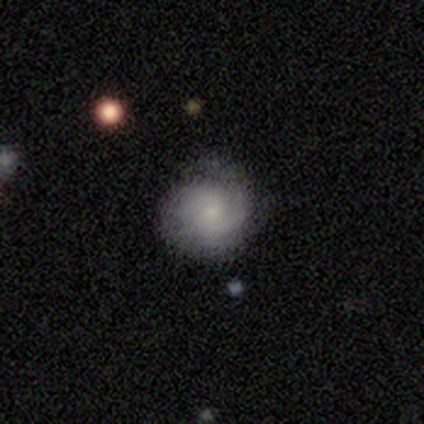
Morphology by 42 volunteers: This is likely a featured or disk galaxy (69%). It is clearly not viewed edge-on (100%). Bar: likely no (69%). Spiral arm pattern: clearly yes (93%). Spiral arm count: likely 2 (67%). Spiral winding: possibly tight (52%). Central bulge: likely small (66%). Merging: likely none (64%).